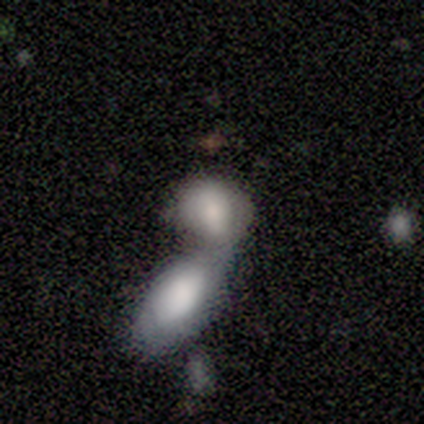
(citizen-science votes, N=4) smooth-or-featured: smooth: 50% (tied) | featured or disk: 50% (tied) | star or artifact: 0%
  how-rounded: in between: 100% | round: 0% | cigar-shaped: 0%
  merging: merger: 100% | none: 0% | minor disturbance: 0% | major disturbance: 0%